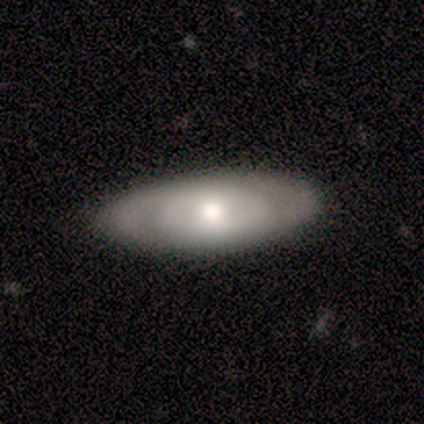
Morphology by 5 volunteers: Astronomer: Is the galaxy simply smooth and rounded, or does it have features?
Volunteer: featured or disk — 60% (runner-up: smooth, 40%).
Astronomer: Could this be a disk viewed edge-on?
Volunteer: no — 100%.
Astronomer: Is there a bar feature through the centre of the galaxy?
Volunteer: no — 67%.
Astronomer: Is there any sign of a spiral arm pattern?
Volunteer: no — 67%.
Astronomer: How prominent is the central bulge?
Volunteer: moderate — 100%.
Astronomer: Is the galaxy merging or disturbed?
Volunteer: none — 100%.